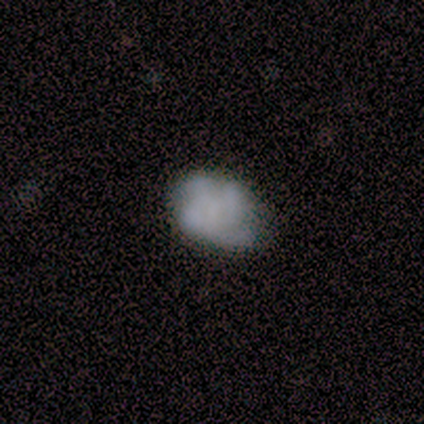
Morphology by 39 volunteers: Smooth or featured?
  - smooth: 49% *
  - featured or disk: 46%
  - star or artifact: 5%
How rounded?
  - in between: 63% *
  - round: 37%
  - cigar-shaped: 0%
Merging?
  - none: 65% *
  - minor disturbance: 24%
  - major disturbance: 5%
  - merger: 5%